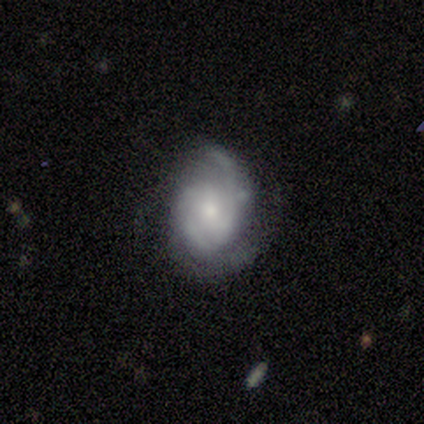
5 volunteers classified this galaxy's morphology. Smooth or featured? 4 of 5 (80%) said featured or disk. Edge-on disk? 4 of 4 (100%) said no. Bar? 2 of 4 (50%) said weak. Spiral arms? 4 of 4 (100%) said yes. Spiral winding? 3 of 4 (75%) said tight. Spiral arm count? 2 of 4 (50%) said 2. Bulge size? 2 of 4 (50%) said moderate. Merging? 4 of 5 (80%) said none.